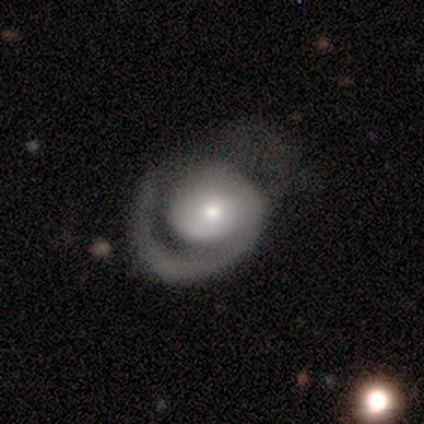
Smooth or featured: featured or disk — 83% (smooth — 17%)
Edge-on disk: no — 100%
Bar: no — 80% (weak — 20%)
Spiral arms: yes — 100%
Spiral winding: medium — 60% (tight — 40%)
Spiral arm count: 1 — 80% (can't tell — 20%)
Bulge size: small — 60% (moderate — 40%)
Merging: major disturbance — 67% (none — 17%)